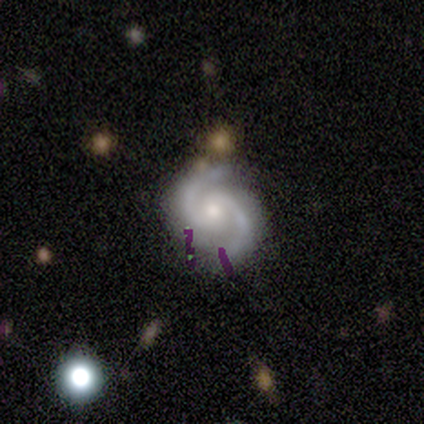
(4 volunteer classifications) Q: Smooth or featured?
A: featured or disk (100%)
Q: Edge-on disk?
A: no (100%)
Q: Bar?
A: weak (50%); tied with: no (50%)
Q: Spiral arms?
A: yes (100%)
Q: Spiral winding?
A: tight (50%); runner-up: medium (25%)
Q: Spiral arm count?
A: 2 (100%)
Q: Bulge size?
A: small (75%); runner-up: moderate (25%)
Q: Merging?
A: none (100%)